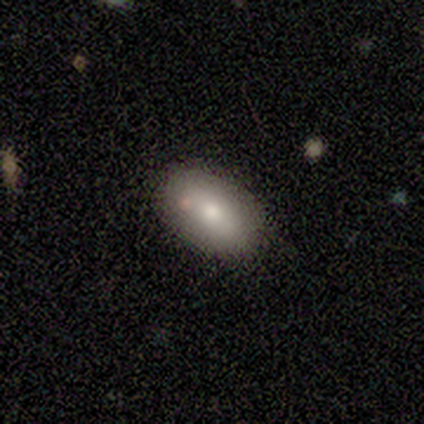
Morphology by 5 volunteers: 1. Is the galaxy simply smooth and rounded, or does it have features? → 60% smooth, 20% featured or disk, 20% star or artifact.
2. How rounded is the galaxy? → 100% in between, 0% round, 0% cigar-shaped.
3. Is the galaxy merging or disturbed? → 75% none, 25% minor disturbance, 0% major disturbance, 0% merger.